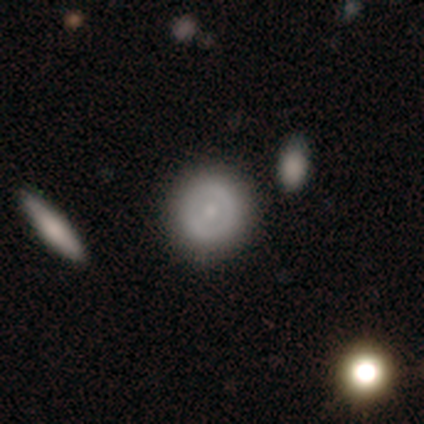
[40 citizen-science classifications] Smooth or featured? 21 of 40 (52%) said featured or disk. Edge-on disk? 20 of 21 (95%) said no. Bar? 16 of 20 (80%) said no. Spiral arms? 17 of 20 (85%) said no. Bulge size? 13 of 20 (65%) said small. Merging? 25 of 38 (66%) said none.